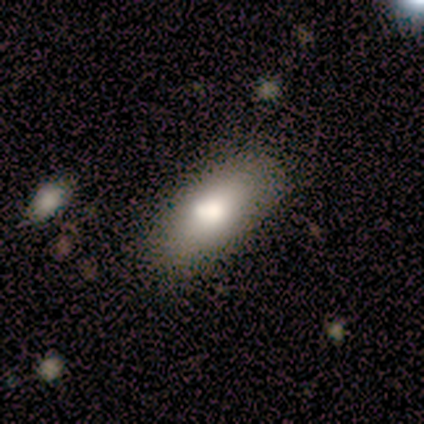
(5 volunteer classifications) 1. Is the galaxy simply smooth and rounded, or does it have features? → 100% smooth, 0% featured or disk, 0% star or artifact.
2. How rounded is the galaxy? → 80% in between, 20% cigar-shaped, 0% round.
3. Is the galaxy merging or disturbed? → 60% none, 40% minor disturbance, 0% major disturbance, 0% merger.